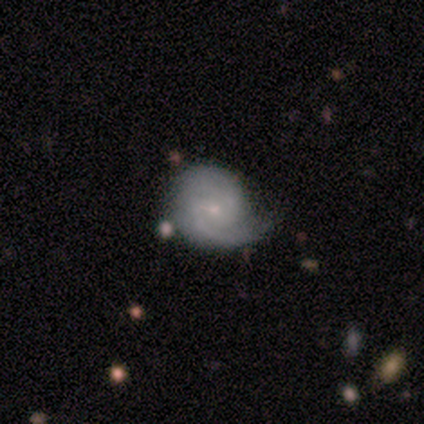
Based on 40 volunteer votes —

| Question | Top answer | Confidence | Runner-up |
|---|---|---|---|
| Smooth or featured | featured or disk | 82% | smooth (10%) |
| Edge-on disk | no | 100% | — |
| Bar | weak | 58% | no (33%) |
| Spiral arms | yes | 94% | no (6%) |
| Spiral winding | tight | 52% | medium (29%) |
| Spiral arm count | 2 | 68% | can't tell (19%) |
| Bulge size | small | 85% | moderate (6%) |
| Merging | none | 62% | minor disturbance (32%) |